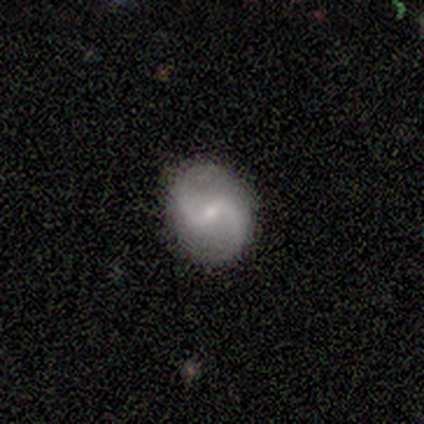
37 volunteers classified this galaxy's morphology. Smooth or featured: featured or disk — 81% (star or artifact — 11%)
Edge-on disk: no — 93% (yes — 7%)
Bar: weak — 64% (strong — 25%)
Spiral arms: yes — 96% (no — 4%)
Spiral winding: loose — 52% (medium — 44%)
Spiral arm count: 2 — 89% (1 — 7%)
Bulge size: small — 79% (moderate — 18%)
Merging: none — 91% (minor disturbance — 6%)